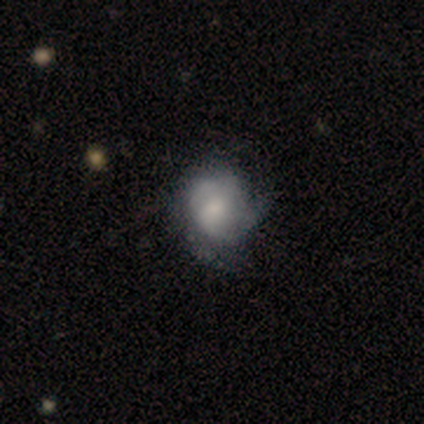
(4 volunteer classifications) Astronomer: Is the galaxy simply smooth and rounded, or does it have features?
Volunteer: smooth — 50%.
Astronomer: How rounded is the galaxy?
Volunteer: round — 50%, tied with in between at 50%.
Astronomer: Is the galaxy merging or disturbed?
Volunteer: none — 67%.